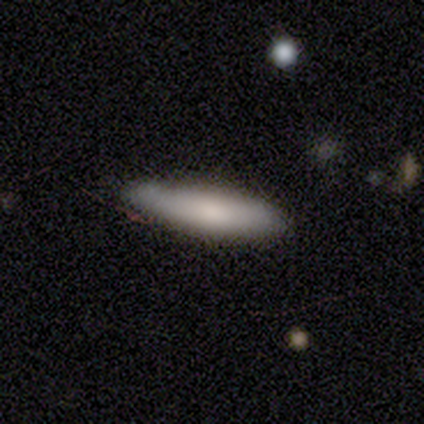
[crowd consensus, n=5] smooth-or-featured: smooth: 60% | featured or disk: 20% | star or artifact: 20%
  how-rounded: cigar-shaped: 67% | in between: 33% | round: 0%
  merging: none: 50% (tied) | minor disturbance: 50% (tied) | major disturbance: 0% | merger: 0%